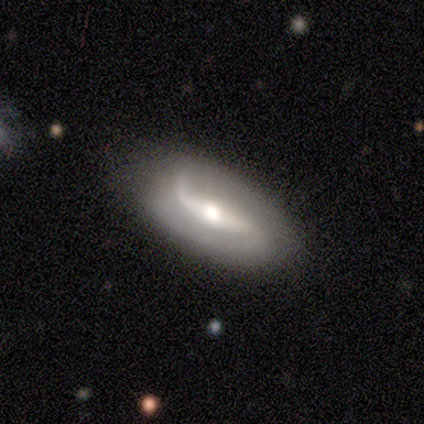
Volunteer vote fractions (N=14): Smooth or featured: featured or disk — 57% (star or artifact — 29%)
Edge-on disk: no — 100%
Bar: strong — 88% (weak — 12%)
Spiral arms: yes — 100%
Spiral winding: loose — 50% (medium — 38%)
Spiral arm count: 2 — 88% (1 — 12%)
Bulge size: moderate — 88% (large — 12%)
Merging: none — 60% (minor disturbance — 40%)